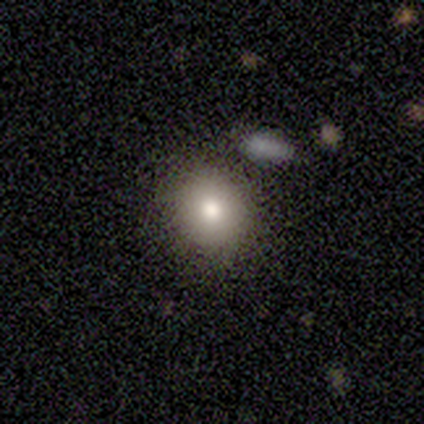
This is likely a smooth galaxy (77%). How rounded: likely round (70%). Merging: clearly none (83%).